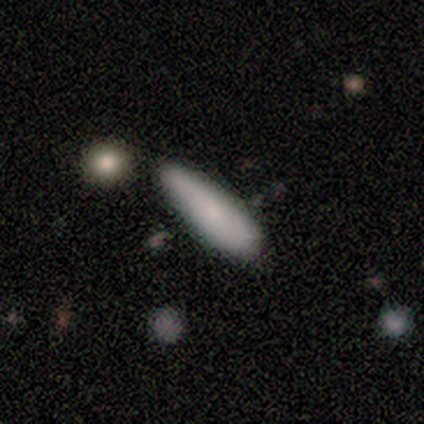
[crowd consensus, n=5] Overall: smooth (80%). How rounded: cigar-shaped (100%). Merging: none (40%; minor disturbance 20%).